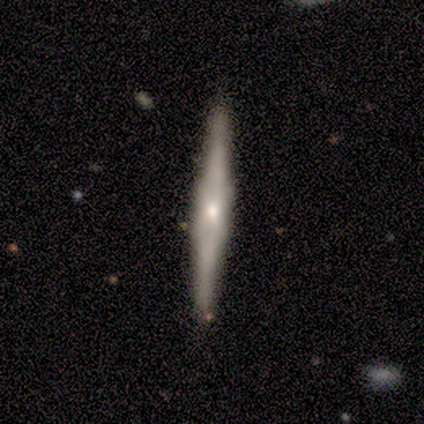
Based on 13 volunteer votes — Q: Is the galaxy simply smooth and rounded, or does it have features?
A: featured or disk — 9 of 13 (69%).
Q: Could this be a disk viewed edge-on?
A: yes — 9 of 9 (100%).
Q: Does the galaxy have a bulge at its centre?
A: rounded — 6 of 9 (67%).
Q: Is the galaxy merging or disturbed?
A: none — 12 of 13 (92%).